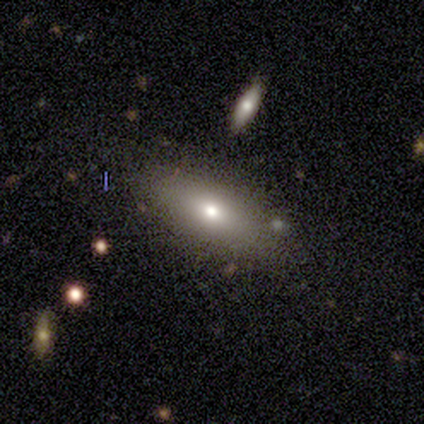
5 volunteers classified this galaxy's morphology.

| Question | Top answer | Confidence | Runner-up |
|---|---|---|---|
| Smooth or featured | smooth | 60% | featured or disk (40%) |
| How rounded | in between | 100% | — |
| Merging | none | 100% | — |